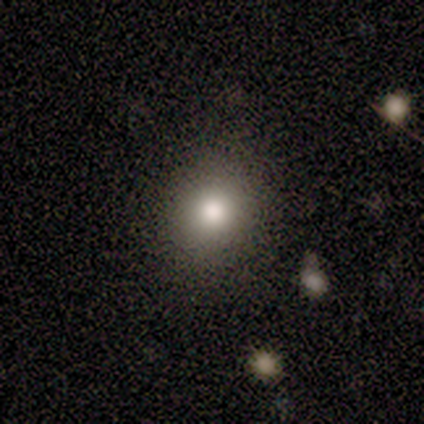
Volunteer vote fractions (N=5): Q: Smooth or featured?
A: smooth (100%)
Q: How rounded?
A: round (80%); runner-up: in between (20%)
Q: Merging?
A: none (100%)